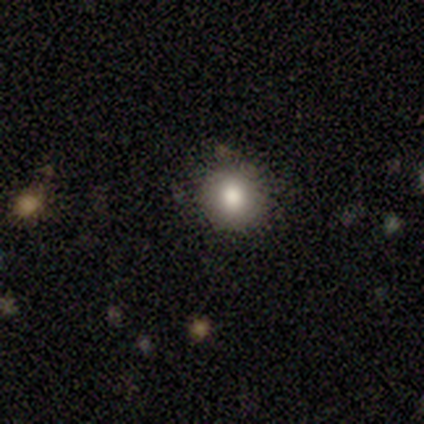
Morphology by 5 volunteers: Smooth or featured? smooth (80%)
How rounded? round (100%)
Merging? none (100%)